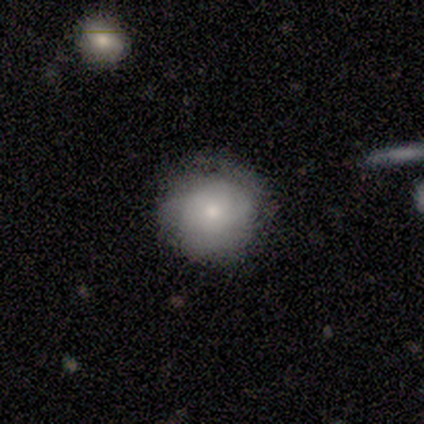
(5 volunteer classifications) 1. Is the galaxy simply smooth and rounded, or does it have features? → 80% smooth, 20% featured or disk, 0% star or artifact.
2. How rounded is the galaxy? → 100% round, 0% in between, 0% cigar-shaped.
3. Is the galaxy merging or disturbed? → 80% none, 20% major disturbance, 0% minor disturbance, 0% merger.